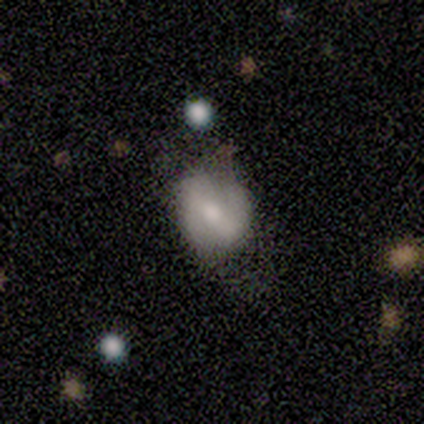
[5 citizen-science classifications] Smooth or featured?
  - smooth: 40% * (tied)
  - featured or disk: 40% * (tied)
  - star or artifact: 20%
How rounded?
  - round: 100% *
  - in between: 0%
  - cigar-shaped: 0%
Merging?
  - none: 75% *
  - major disturbance: 25%
  - minor disturbance: 0%
  - merger: 0%